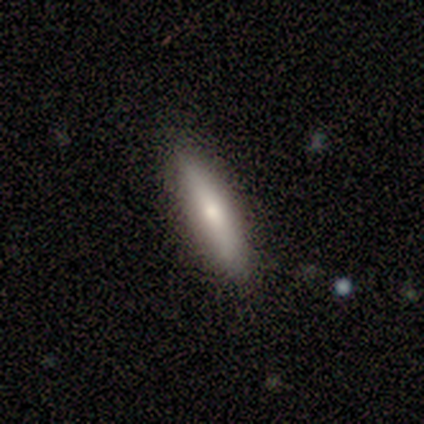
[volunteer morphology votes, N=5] smooth_or_featured: smooth (p=0.60) [alt: featured or disk p=0.40]
how_rounded: cigar-shaped (p=0.67) [alt: in between p=0.33]
merging: none (p=0.80) [alt: minor disturbance p=0.20]